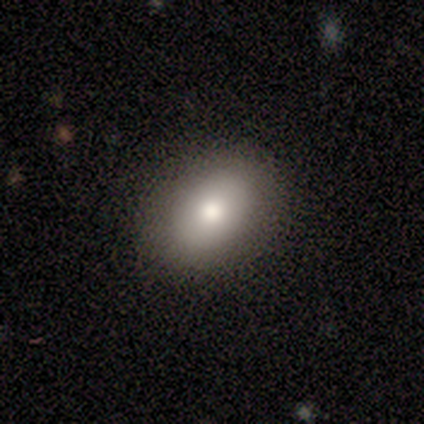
Volunteers were most divided on "how rounded": in between: 60%, round: 40%, cigar-shaped: 0%. More confident: smooth or featured — smooth (100%); merging — none (80%).